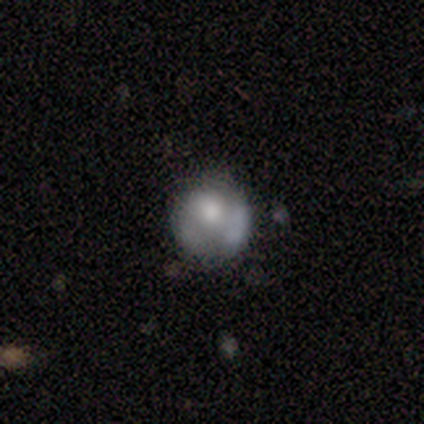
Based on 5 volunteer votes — smooth_or_featured: smooth (p=0.60) [alt: featured or disk p=0.40]
how_rounded: round (p=1.00)
merging: none (p=0.60) [alt: minor disturbance p=0.20]